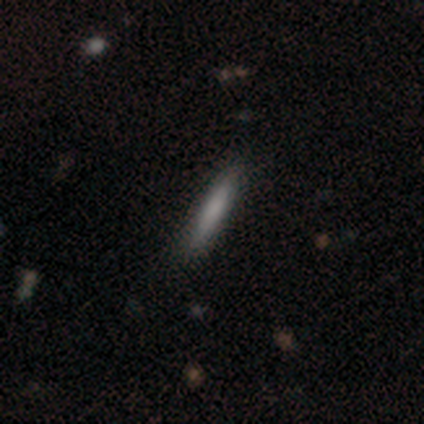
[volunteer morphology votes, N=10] A smooth galaxy with no disk features (70%) that is cigar-shaped (100%).

Vote fractions:
- Smooth or featured? smooth: 70% / featured or disk: 20% / star or artifact: 10%
- How rounded? cigar-shaped: 100% / round: 0% / in between: 0%
- Merging? none: 89% / minor disturbance: 11% / major disturbance: 0% / merger: 0%